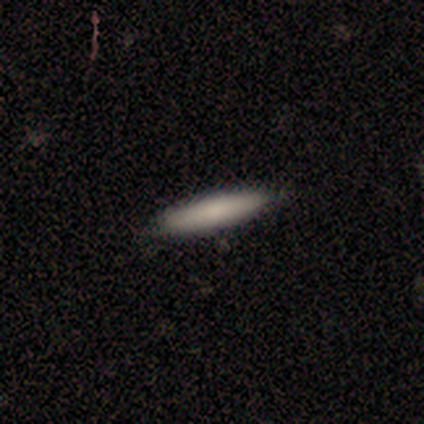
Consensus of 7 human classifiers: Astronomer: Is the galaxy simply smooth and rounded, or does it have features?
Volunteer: smooth — 71%.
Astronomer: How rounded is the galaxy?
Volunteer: cigar-shaped — 100%.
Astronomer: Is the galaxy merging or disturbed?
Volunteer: none — 86%.